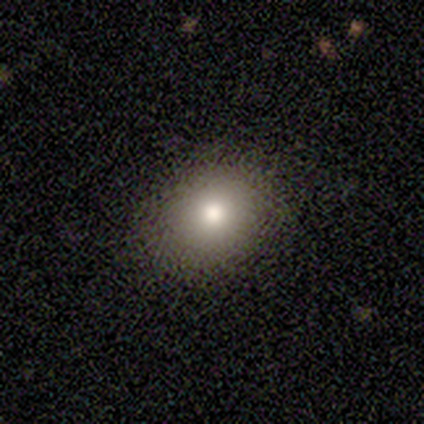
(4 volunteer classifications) smooth 75%, star or artifact 25%, featured or disk 0%. Down the decision tree: how rounded — in between (100%); merging — none (67%).